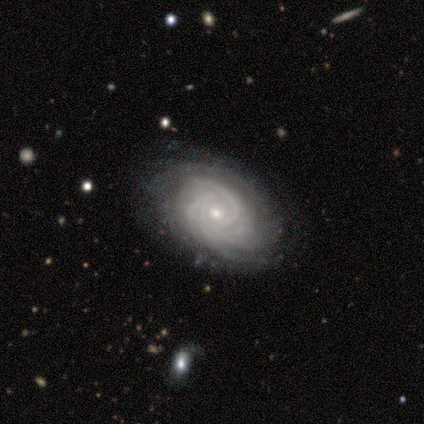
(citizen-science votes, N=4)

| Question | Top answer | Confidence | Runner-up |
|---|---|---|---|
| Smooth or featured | featured or disk | 100% | — |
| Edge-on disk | no | 100% | — |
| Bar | no | 75% | weak (25%) |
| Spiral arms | yes | 100% | — |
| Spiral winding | tight | 100% | — |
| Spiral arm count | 3 | 75% | more than 4 (25%) |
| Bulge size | small | 75% | moderate (25%) |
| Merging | none | 75% | minor disturbance (25%) |